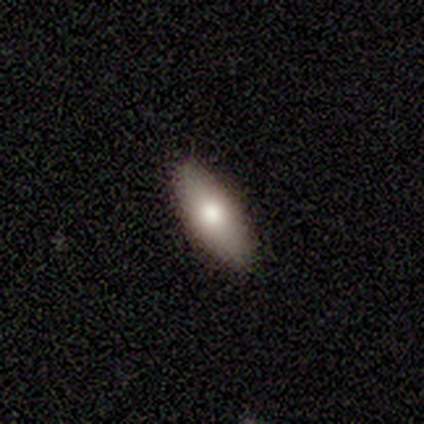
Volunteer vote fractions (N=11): smooth-or-featured: smooth: 100% | featured or disk: 0% | star or artifact: 0%
  how-rounded: in between: 100% | round: 0% | cigar-shaped: 0%
  merging: none: 91% | minor disturbance: 9% | major disturbance: 0% | merger: 0%